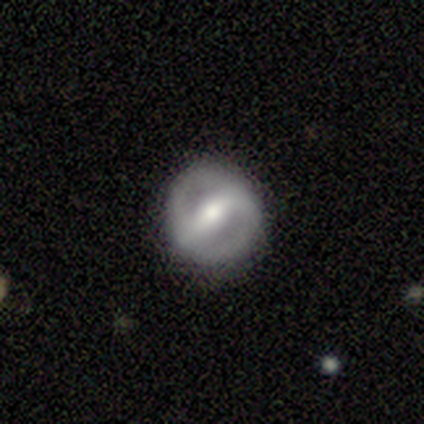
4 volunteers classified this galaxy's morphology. type=featured or disk (75%); edge-on=no (100%); bar=strong (67%); spiral arms=yes (67%); winding=tight (50%, tied with medium); arm count=2 (100%); bulge=moderate (67%); merging=none (75%).